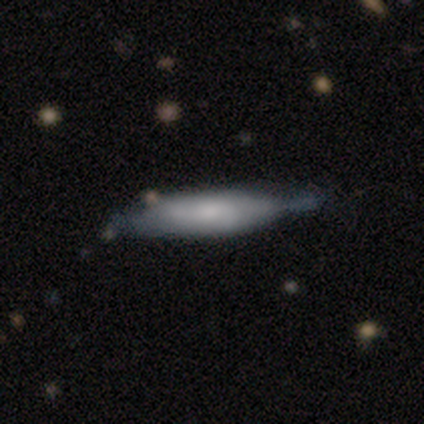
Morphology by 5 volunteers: This appears to be a featured or disk galaxy (80%) viewed edge-on (50%, tied with no) with a rounded central bulge (100%). Merging: minor disturbance (60%).